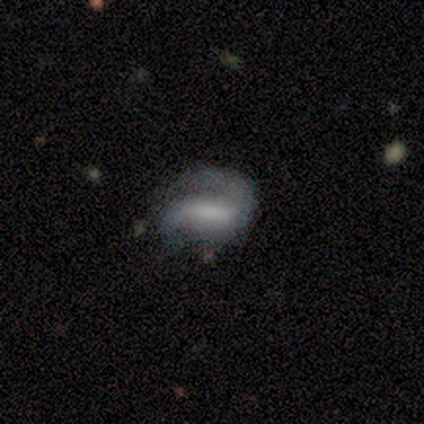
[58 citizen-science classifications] Smooth or featured? featured or disk (64%)
Edge-on disk? no (97%)
Bar? strong (44%, tied with weak)
Spiral arms? yes (89%)
Spiral winding? tight (34%, tied with medium)
Spiral arm count? 2 (72%)
Bulge size? none (42%)
Merging? none (40%, tied with major disturbance)